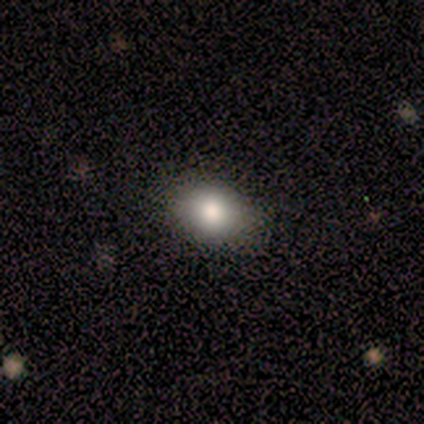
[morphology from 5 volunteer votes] Q: Smooth or featured?
A: smooth (80%); runner-up: star or artifact (20%)
Q: How rounded?
A: in between (100%)
Q: Merging?
A: none (75%); runner-up: minor disturbance (25%)